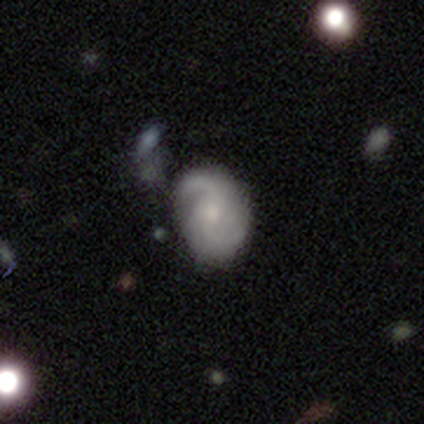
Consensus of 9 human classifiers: Volunteers were most divided on "smooth or featured": featured or disk: 56%, smooth: 44%, star or artifact: 0%. More confident: edge-on disk — no (100%); bar — no (100%); spiral arm count — 2 (100%); spiral arms — yes (80%); bulge size — small (60%); merging — none (56%); spiral winding — medium (50%).